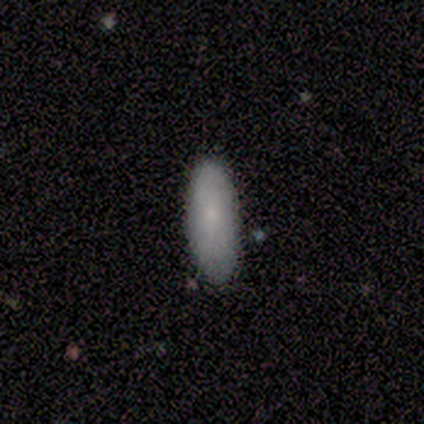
This is clearly a smooth galaxy (100%). How rounded: possibly in between (57%). Merging: clearly none (86%).